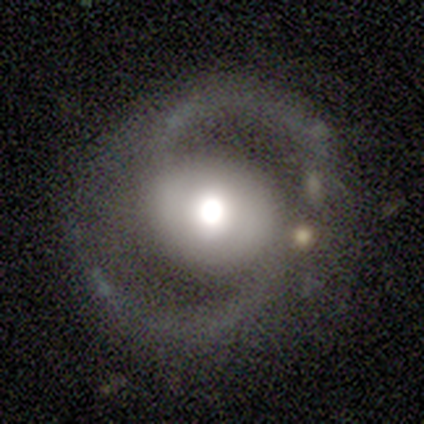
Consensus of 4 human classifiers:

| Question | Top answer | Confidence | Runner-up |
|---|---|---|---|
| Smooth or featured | featured or disk | 75% | smooth (25%) |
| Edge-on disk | no | 100% | — |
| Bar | no | 67% | strong (33%) |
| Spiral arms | yes | 100% | — |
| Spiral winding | medium | 100% | — |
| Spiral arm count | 2 | 100% | — |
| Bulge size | moderate | 67% | large (33%) |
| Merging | none | 50% | minor disturbance (25%) |